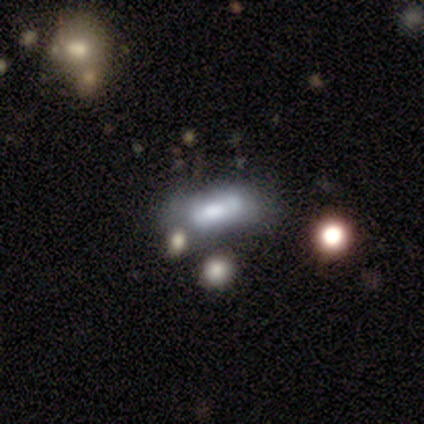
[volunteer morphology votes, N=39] smooth 62%, featured or disk 28%, star or artifact 10%. Down the decision tree: how rounded — in between (88%); merging — none (49%).